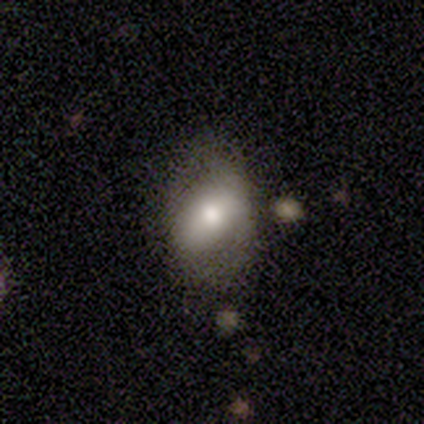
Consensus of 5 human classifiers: A smooth galaxy with no disk features (60%) that is in between round and cigar-shaped (67%).

Vote fractions:
- Smooth or featured? smooth: 60% / featured or disk: 40% / star or artifact: 0%
- How rounded? in between: 67% / round: 33% / cigar-shaped: 0%
- Merging? none: 80% / minor disturbance: 20% / major disturbance: 0% / merger: 0%